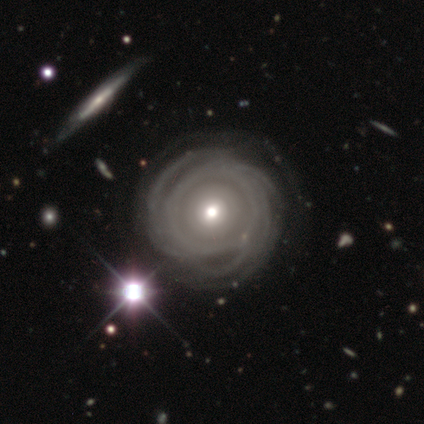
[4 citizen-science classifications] smooth-or-featured: featured or disk: 100% | smooth: 0% | star or artifact: 0%
  disk-edge-on: no: 75% | yes: 25%
    bar: no: 67% | weak: 33% | strong: 0%
    has-spiral-arms: yes: 100% | no: 0%
      spiral-winding: tight: 67% | loose: 33% | medium: 0%
      spiral-arm-count: 1: 33% (tied) | more than 4: 33% (tied) | can't tell: 33% (tied) | 2: 0% | 3: 0% | 4: 0%
    bulge-size: moderate: 67% | small: 33% | dominant: 0% | large: 0% | none: 0%
  merging: none: 75% | minor disturbance: 25% | major disturbance: 0% | merger: 0%